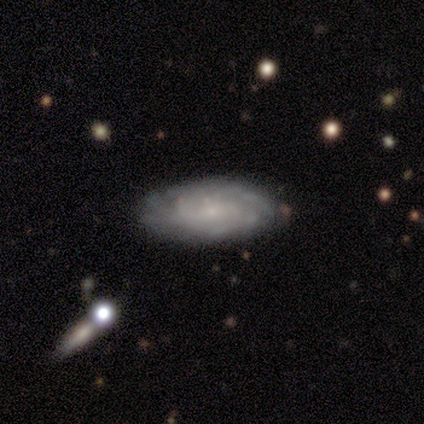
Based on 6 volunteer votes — Q: Smooth or featured?
A: featured or disk (50%); runner-up: star or artifact (33%)
Q: Edge-on disk?
A: no (100%)
Q: Bar?
A: weak (67%); runner-up: strong (33%)
Q: Spiral arms?
A: yes (100%)
Q: Spiral winding?
A: tight (67%); runner-up: medium (33%)
Q: Spiral arm count?
A: can't tell (67%); runner-up: 2 (33%)
Q: Bulge size?
A: small (100%)
Q: Merging?
A: none (50%); tied with: minor disturbance (50%)